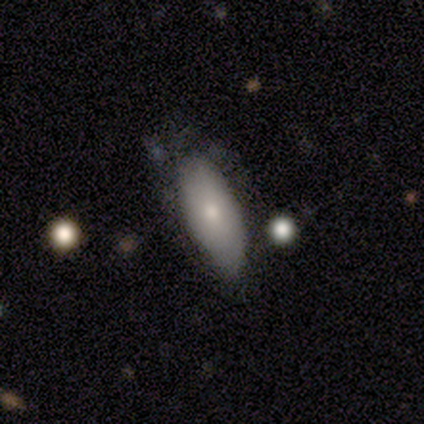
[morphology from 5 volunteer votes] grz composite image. It shows a featured or disk galaxy (60%) with no bar (100%), no spiral arms (100%) and a small central bulge (67%). Merging: none (40%, tied with minor disturbance).